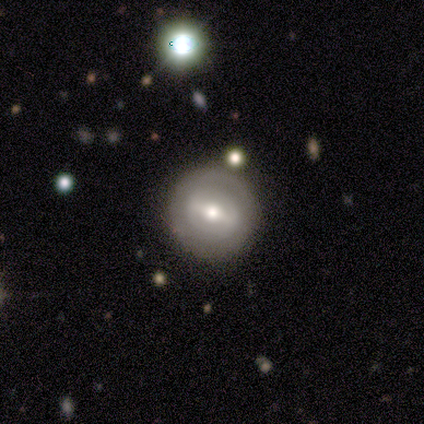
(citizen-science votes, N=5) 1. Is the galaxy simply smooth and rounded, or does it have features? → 80% featured or disk, 20% smooth, 0% star or artifact.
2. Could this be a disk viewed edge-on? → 100% no, 0% yes.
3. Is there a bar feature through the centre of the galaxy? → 75% strong, 25% weak, 0% no.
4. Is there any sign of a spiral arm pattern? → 75% no, 25% yes.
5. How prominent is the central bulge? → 100% moderate, 0% dominant, 0% large, 0% small, 0% none.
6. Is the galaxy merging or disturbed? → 100% none, 0% minor disturbance, 0% major disturbance, 0% merger.